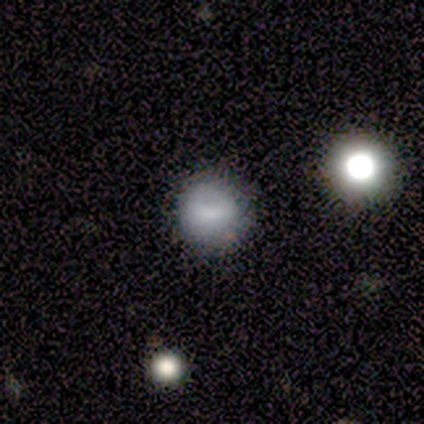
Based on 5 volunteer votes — Q: Smooth or featured?
A: smooth (80%); runner-up: star or artifact (20%)
Q: How rounded?
A: round (100%)
Q: Merging?
A: none (100%)